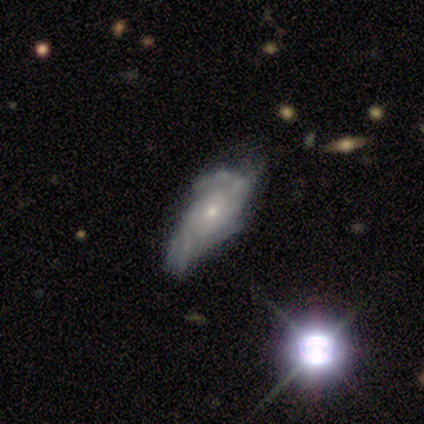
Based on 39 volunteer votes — A featured or disk galaxy (85%) with no bar (72%), medium (50%) spiral arms (88%) and a small central bulge (69%).

Vote fractions:
- Smooth or featured? featured or disk: 85% / smooth: 8% / star or artifact: 8%
- Edge-on disk? no: 97% / yes: 3%
- Bar? no: 72% / weak: 25% / strong: 3%
- Spiral arms? yes: 88% / no: 12%
- Spiral winding? medium: 50% / tight: 39% / loose: 11%
- Spiral arm count? can't tell: 39% / 2: 36% / 3: 7% / 4: 7% / more than 4: 7% / 1: 4%
- Bulge size? small: 69% / moderate: 28% / large: 3% / dominant: 0% / none: 0%
- Merging? none: 42% / major disturbance: 25% / minor disturbance: 17% / merger: 0%